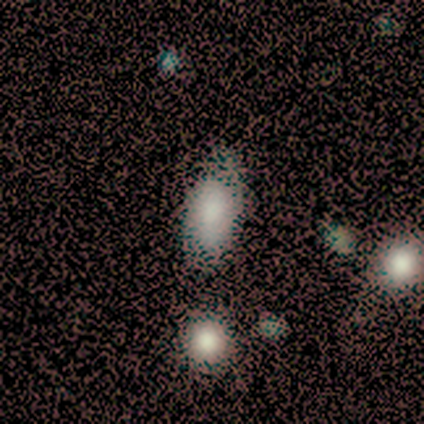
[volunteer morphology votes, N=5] Q: Smooth or featured?
A: smooth (80%); runner-up: star or artifact (20%)
Q: How rounded?
A: in between (100%)
Q: Merging?
A: none (50%); tied with: minor disturbance (50%)